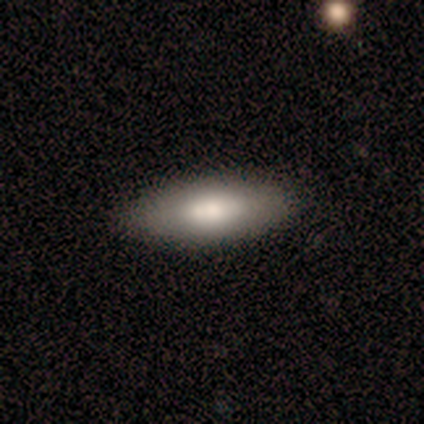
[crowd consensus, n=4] A smooth galaxy with no disk features (75%) that is in between round and cigar-shaped (100%). Merging: none (100%).